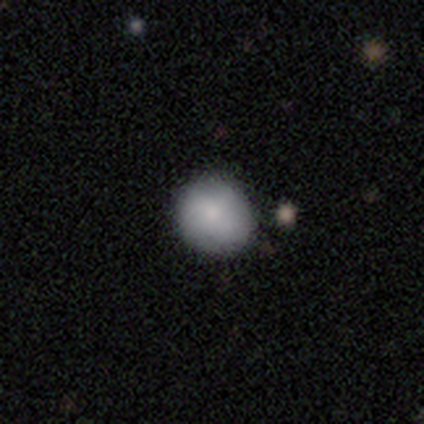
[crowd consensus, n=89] Q: Smooth or featured?
A: smooth (80%); runner-up: featured or disk (13%)
Q: How rounded?
A: round (85%); runner-up: in between (15%)
Q: Merging?
A: none (87%); runner-up: minor disturbance (8%)